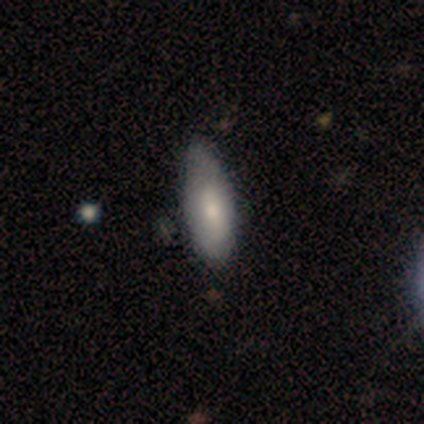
Smooth or featured: featured or disk — 60% (smooth — 40%)
Edge-on disk: no — 100%
Bar: no — 67% (weak — 33%)
Spiral arms: no — 67% (yes — 33%)
Bulge size: moderate — 67% (large — 33%)
Merging: minor disturbance — 60% (none — 20%)